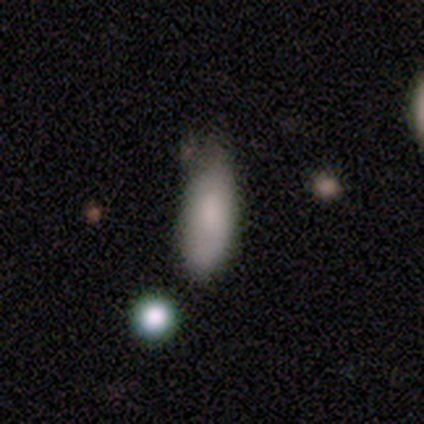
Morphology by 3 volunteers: Overall: smooth (100%). How rounded: in between (67%; cigar-shaped 33%). Merging: none (33%, tied with minor disturbance and major disturbance).